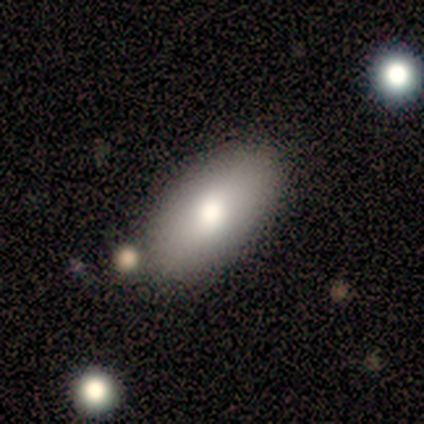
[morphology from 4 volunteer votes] Smooth or featured?
  - smooth: 100% *
  - featured or disk: 0%
  - star or artifact: 0%
How rounded?
  - in between: 100% *
  - round: 0%
  - cigar-shaped: 0%
Merging?
  - none: 75% *
  - minor disturbance: 25%
  - major disturbance: 0%
  - merger: 0%